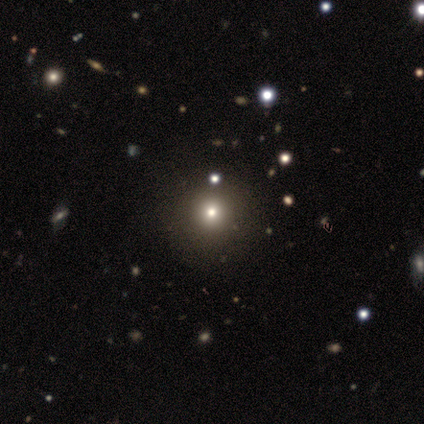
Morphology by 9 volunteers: Smooth or featured?
  - smooth: 89% *
  - star or artifact: 11%
  - featured or disk: 0%
How rounded?
  - round: 100% *
  - in between: 0%
  - cigar-shaped: 0%
Merging?
  - none: 100% *
  - minor disturbance: 0%
  - major disturbance: 0%
  - merger: 0%